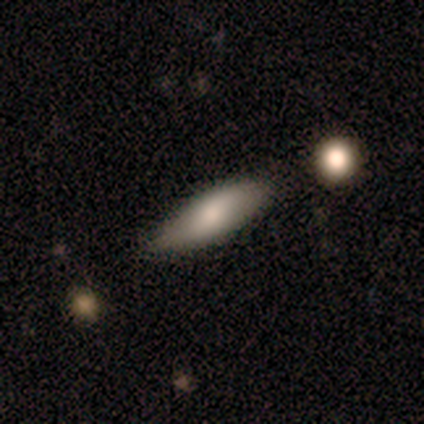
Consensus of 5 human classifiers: Volunteers were most divided on "how rounded": in between: 75%, cigar-shaped: 25%, round: 0%. More confident: merging — none (100%); smooth or featured — smooth (80%).